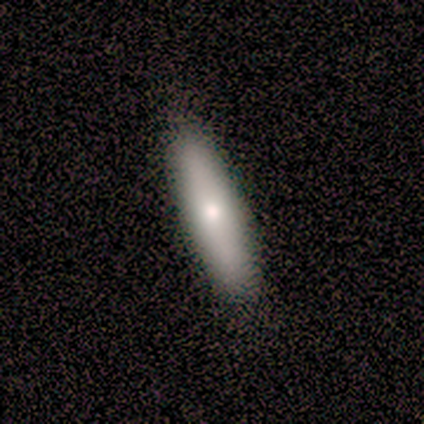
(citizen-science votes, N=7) Volunteers were most divided on "how rounded" (2-way tie): in between: 50%, cigar-shaped: 50%, round: 0%. More confident: smooth or featured — smooth (86%); merging — none (86%).